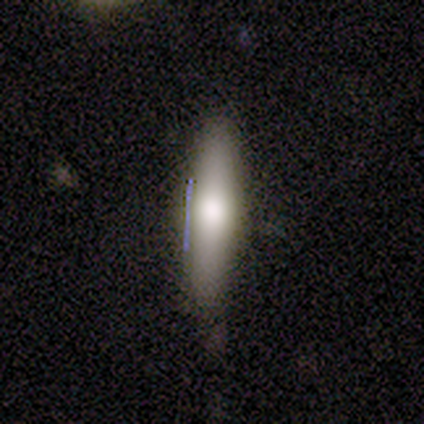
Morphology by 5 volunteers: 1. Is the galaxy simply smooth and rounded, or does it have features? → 60% smooth, 40% featured or disk, 0% star or artifact.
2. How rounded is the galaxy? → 100% cigar-shaped, 0% round, 0% in between.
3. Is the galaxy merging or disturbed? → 80% none, 20% minor disturbance, 0% major disturbance, 0% merger.